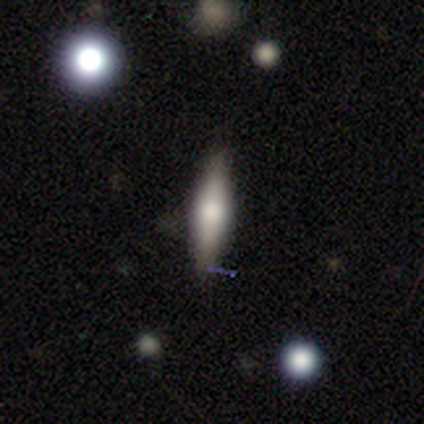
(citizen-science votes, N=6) Smooth or featured: smooth — 67% (featured or disk — 17%)
How rounded: cigar-shaped — 100%
Merging: none — 100%